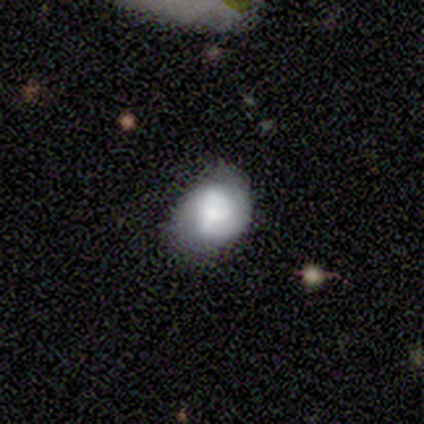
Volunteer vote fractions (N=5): smooth_or_featured: smooth (p=0.40) [tied with: featured or disk p=0.40]
how_rounded: in between (p=1.00)
merging: none (p=0.50) [tied with: minor disturbance p=0.50]